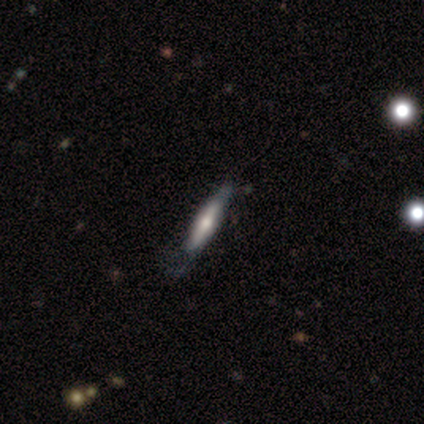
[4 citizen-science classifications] This is likely a smooth galaxy (75%). How rounded: clearly cigar-shaped (100%). Merging: possibly none (50%).